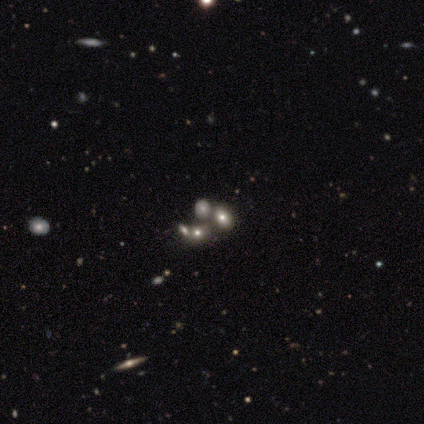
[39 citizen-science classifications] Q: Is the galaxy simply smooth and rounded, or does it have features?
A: smooth — 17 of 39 (44%).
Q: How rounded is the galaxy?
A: in between — 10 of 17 (59%).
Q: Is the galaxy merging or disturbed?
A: merger — 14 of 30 (47%).